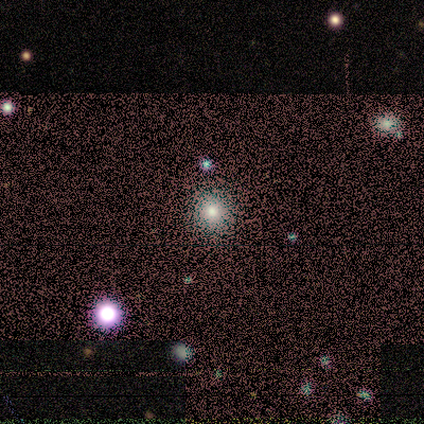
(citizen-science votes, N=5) Overall: smooth (60%; featured or disk 20%). How rounded: round (100%). Merging: none (75%).